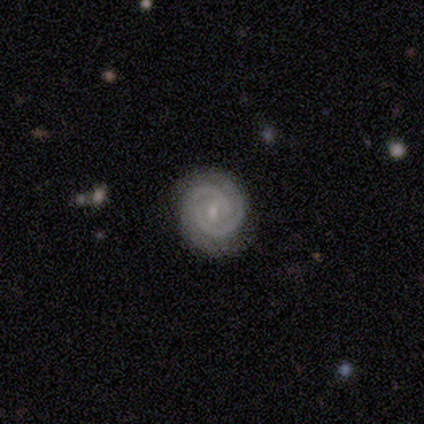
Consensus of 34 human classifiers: This appears to be a featured or disk galaxy (76%) with no bar (50%), 2 (81%) tight (81%) spiral arms (100%) and a small central bulge (77%). Merging: none (90%).